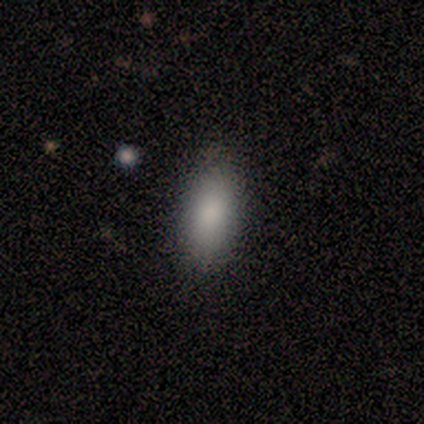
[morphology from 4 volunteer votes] smooth 75%, star or artifact 25%, featured or disk 0%. Down the decision tree: how rounded — in between (100%); merging — none (33%, tied with minor disturbance and major disturbance).